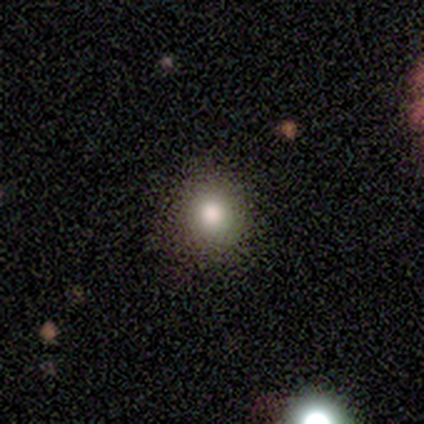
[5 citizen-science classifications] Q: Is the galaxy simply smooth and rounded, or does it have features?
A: smooth — 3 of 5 (60%).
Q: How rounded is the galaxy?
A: round — 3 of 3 (100%).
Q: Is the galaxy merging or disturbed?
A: none — 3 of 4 (75%).